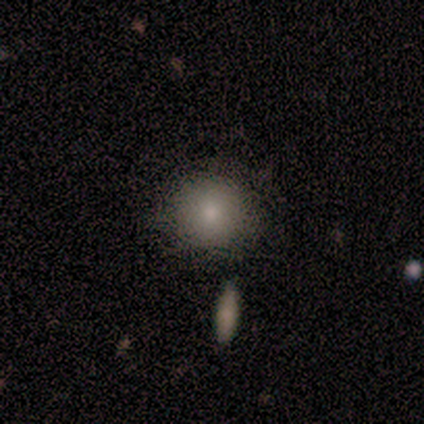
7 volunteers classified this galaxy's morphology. This appears to be a smooth galaxy with no disk features (86%) that is round (100%). Merging: none (86%).